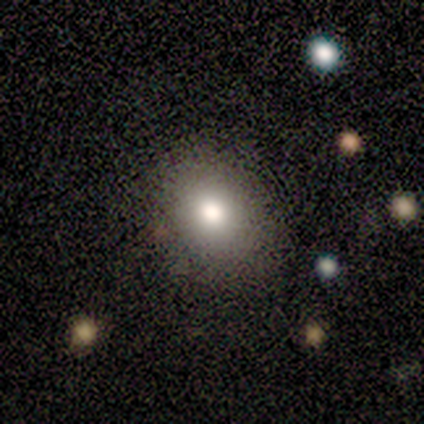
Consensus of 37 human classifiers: Overall: smooth (70%). How rounded: round (54%; in between 42%). Merging: none (76%).